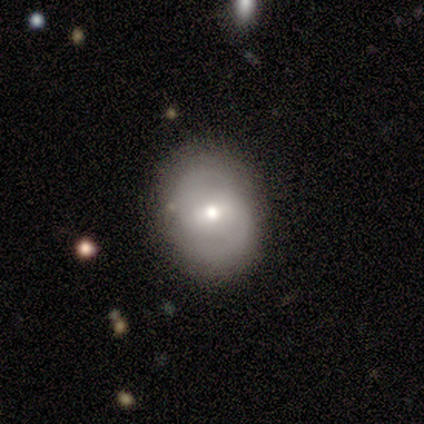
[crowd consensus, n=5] A smooth galaxy with no disk features (60%) that is in between round and cigar-shaped (67%).

Vote fractions:
- Smooth or featured? smooth: 60% / featured or disk: 40% / star or artifact: 0%
- How rounded? in between: 67% / round: 33% / cigar-shaped: 0%
- Merging? none: 100% / minor disturbance: 0% / major disturbance: 0% / merger: 0%